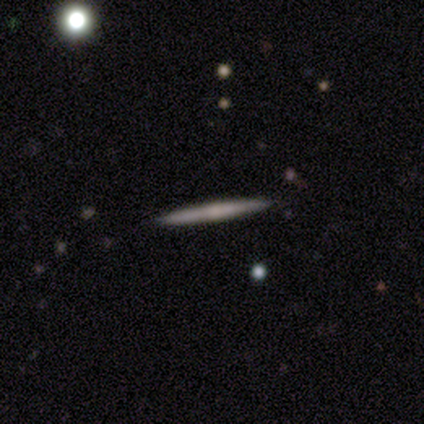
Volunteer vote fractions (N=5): Smooth or featured? featured or disk (60%)
Edge-on disk? yes (100%)
Edge-on bulge? none (67%)
Merging? none (100%)